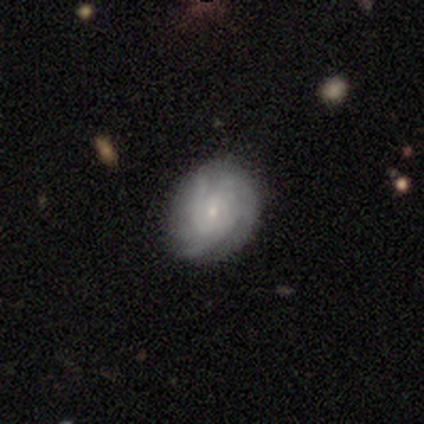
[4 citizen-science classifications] Q: Smooth or featured?
A: smooth (50%); tied with: featured or disk (50%)
Q: How rounded?
A: round (50%); tied with: in between (50%)
Q: Merging?
A: minor disturbance (50%); runner-up: none (25%)